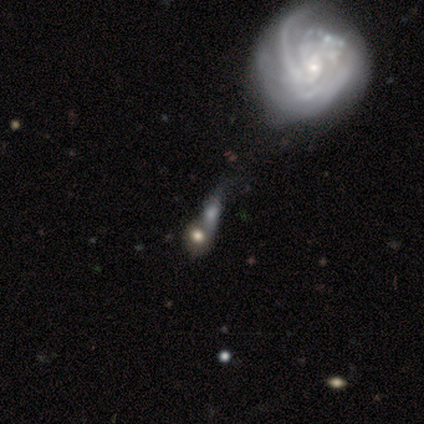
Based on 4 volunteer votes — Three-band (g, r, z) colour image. It shows a featured or disk galaxy (75%) with no bar (67%), 1 (50%, tied with 3) tight (100%) spiral arms (67%) and a small central bulge (67%). Merging: none (33%, tied with minor disturbance and merger).